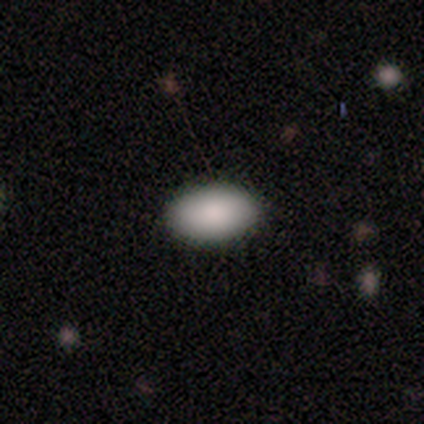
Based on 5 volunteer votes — This appears to be a smooth galaxy with no disk features (100%) that is in between round and cigar-shaped (100%). Merging: none (100%).